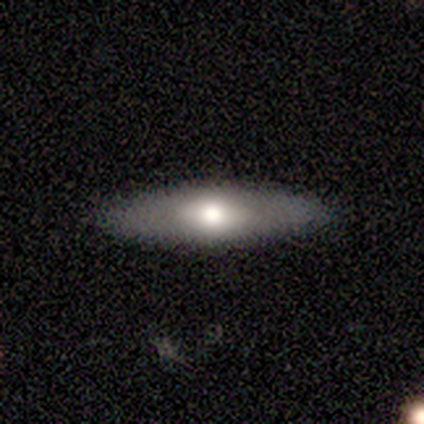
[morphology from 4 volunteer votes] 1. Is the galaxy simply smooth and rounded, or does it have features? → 50% smooth, 25% featured or disk, 25% star or artifact.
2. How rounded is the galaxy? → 100% in between, 0% round, 0% cigar-shaped.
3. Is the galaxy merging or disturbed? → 100% none, 0% minor disturbance, 0% major disturbance, 0% merger.